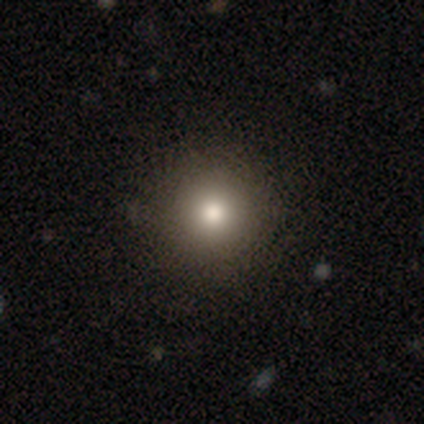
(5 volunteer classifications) This is marginally a featured or disk galaxy (40%, tied with star or artifact). It is clearly not viewed edge-on (100%). Bar: clearly no (100%). Spiral arm pattern: clearly no (100%). Central bulge: clearly moderate (100%). Merging: clearly none (100%).